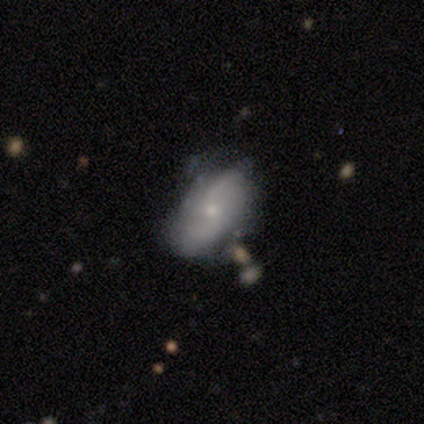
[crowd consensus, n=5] A featured or disk galaxy (80%) with no bar (75%), 2 (75%) medium (50%, tied with loose) spiral arms (100%) and a small central bulge (100%).

Vote fractions:
- Smooth or featured? featured or disk: 80% / smooth: 20% / star or artifact: 0%
- Edge-on disk? no: 100% / yes: 0%
- Bar? no: 75% / weak: 25% / strong: 0%
- Spiral arms? yes: 100% / no: 0%
- Spiral winding? medium: 50% (tied) / loose: 50% (tied) / tight: 0%
- Spiral arm count? 2: 75% / can't tell: 25% / 1: 0% / 3: 0% / 4: 0% / more than 4: 0%
- Bulge size? small: 100% / dominant: 0% / large: 0% / moderate: 0% / none: 0%
- Merging? none: 60% / minor disturbance: 20% / merger: 20% / major disturbance: 0%